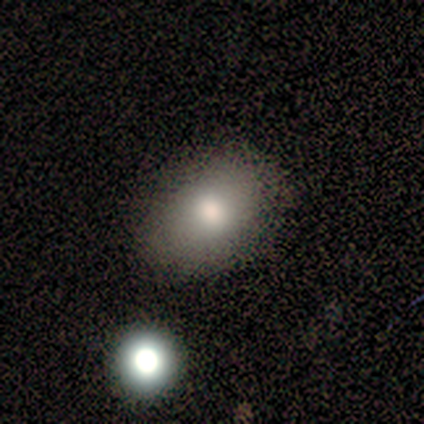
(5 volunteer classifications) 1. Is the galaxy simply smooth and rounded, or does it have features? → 60% smooth, 40% star or artifact, 0% featured or disk.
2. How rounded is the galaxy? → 100% in between, 0% round, 0% cigar-shaped.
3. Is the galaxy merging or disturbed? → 67% none, 33% major disturbance, 0% minor disturbance, 0% merger.